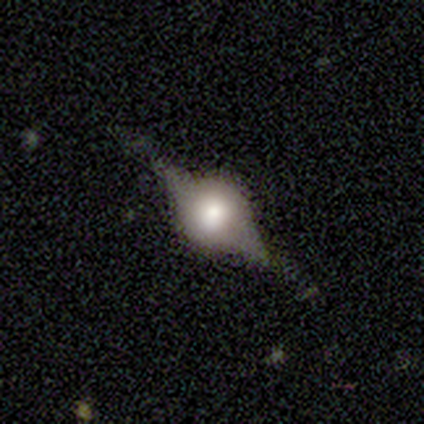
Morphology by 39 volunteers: Smooth or featured: featured or disk — 74% (smooth — 21%)
Edge-on disk: yes — 79% (no — 21%)
Edge-on bulge: rounded — 100%
Merging: none — 73% (minor disturbance — 19%)